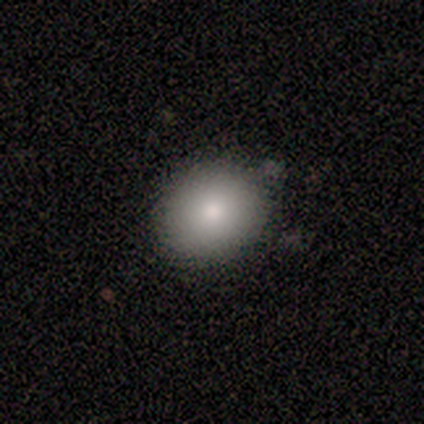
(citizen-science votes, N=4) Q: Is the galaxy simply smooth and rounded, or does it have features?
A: smooth — 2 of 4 (50%, tied with featured or disk).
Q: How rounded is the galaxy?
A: round — 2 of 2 (100%).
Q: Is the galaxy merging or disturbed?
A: none — 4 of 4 (100%).